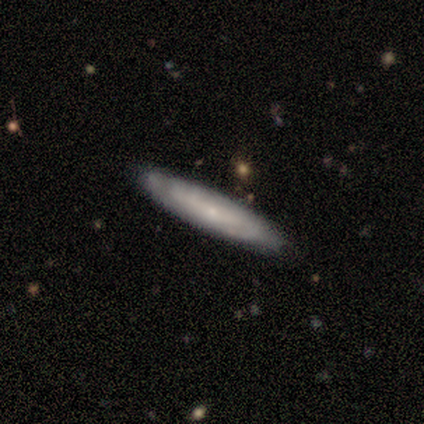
Morphology: type=smooth (67%); roundness=cigar-shaped (100%); merging=none (100%).